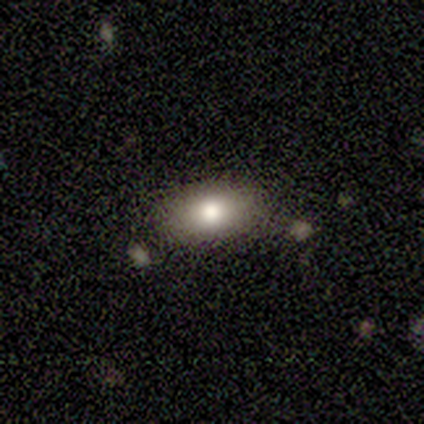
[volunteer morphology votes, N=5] Q: Smooth or featured?
A: smooth (100%)
Q: How rounded?
A: in between (100%)
Q: Merging?
A: none (100%)